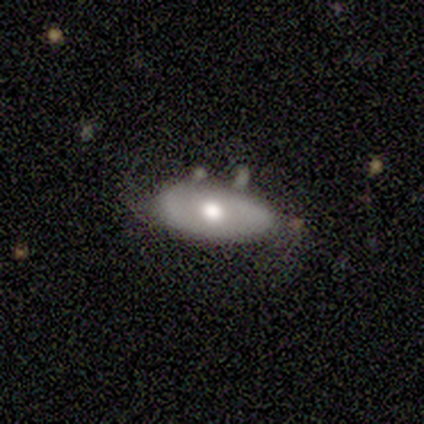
This is likely a smooth galaxy (60%). How rounded: clearly in between (100%). Merging: likely none (75%).